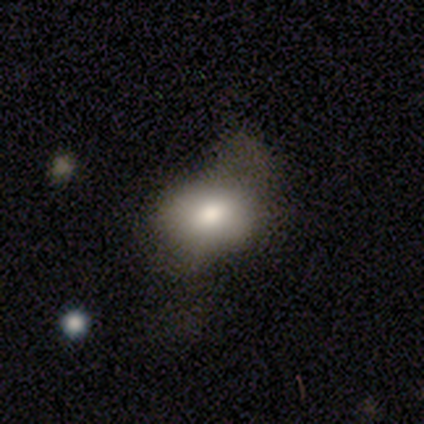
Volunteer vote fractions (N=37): Smooth or featured: smooth — 76% (featured or disk — 14%)
How rounded: in between — 82% (round — 18%)
Merging: minor disturbance — 36% (major disturbance — 33%)